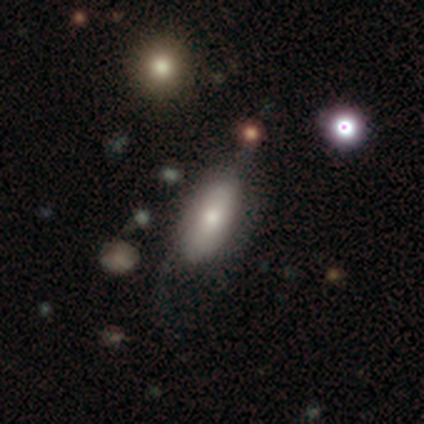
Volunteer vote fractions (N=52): A smooth galaxy with no disk features (81%) that is in between round and cigar-shaped (90%).

Vote fractions:
- Smooth or featured? smooth: 81% / featured or disk: 17% / star or artifact: 2%
- How rounded? in between: 90% / cigar-shaped: 10% / round: 0%
- Merging? none: 53% / major disturbance: 24% / minor disturbance: 22% / merger: 2%